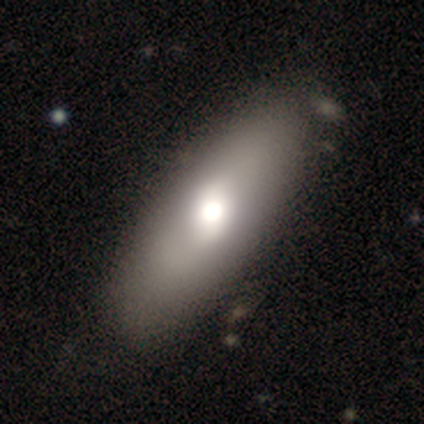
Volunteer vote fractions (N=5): Overall: smooth (80%). How rounded: in between (100%). Merging: none (80%).